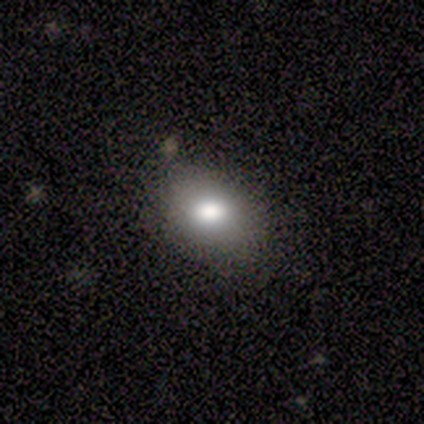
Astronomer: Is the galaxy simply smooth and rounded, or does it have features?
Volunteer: smooth — 60% (runner-up: star or artifact, 40%).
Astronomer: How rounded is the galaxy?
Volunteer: in between — 67%.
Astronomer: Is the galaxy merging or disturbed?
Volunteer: none — 67%.